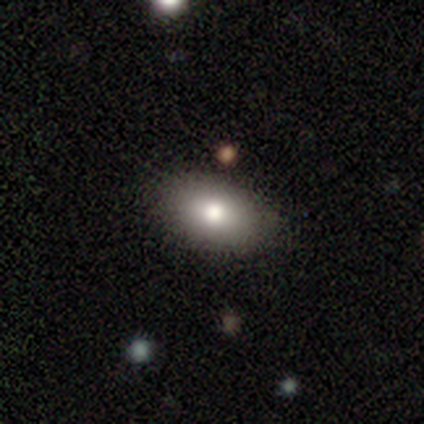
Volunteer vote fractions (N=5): Q: Smooth or featured?
A: smooth (80%); runner-up: featured or disk (20%)
Q: How rounded?
A: in between (100%)
Q: Merging?
A: none (100%)